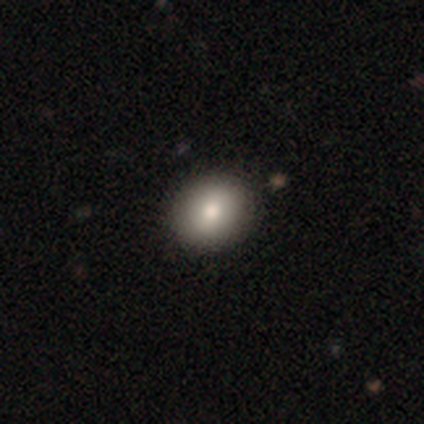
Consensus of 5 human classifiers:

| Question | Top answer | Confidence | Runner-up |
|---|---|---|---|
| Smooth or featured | smooth | 100% | — |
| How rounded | round | 100% | — |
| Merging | none | 100% | — |